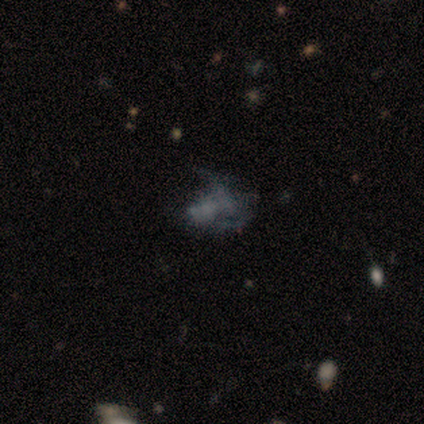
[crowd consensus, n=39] A star or artifact, not a galaxy (46%).